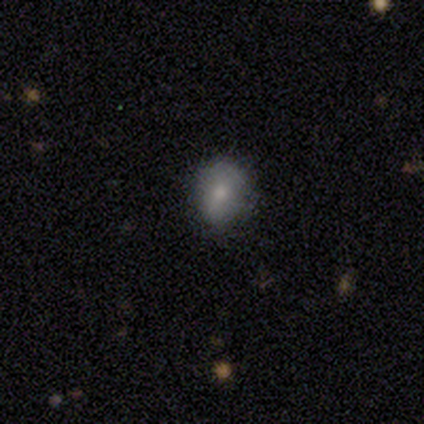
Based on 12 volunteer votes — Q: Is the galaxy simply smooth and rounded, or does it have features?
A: smooth — 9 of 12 (75%).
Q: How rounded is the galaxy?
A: in between — 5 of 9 (56%).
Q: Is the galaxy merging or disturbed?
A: none — 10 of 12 (83%).